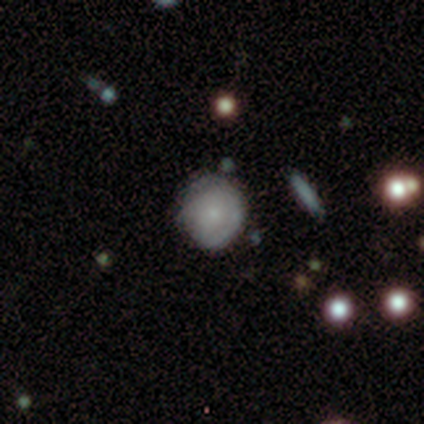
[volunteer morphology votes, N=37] Overall: smooth (57%; featured or disk 35%). How rounded: round (81%). Merging: none (79%).